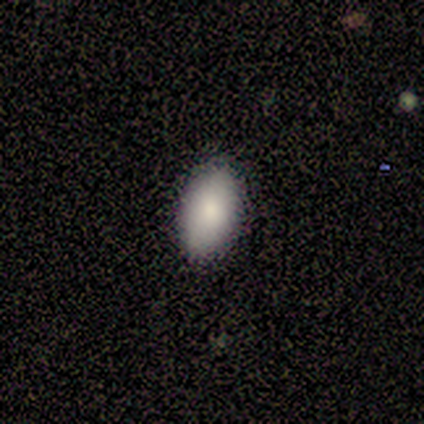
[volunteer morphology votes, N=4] type=smooth (75%); roundness=in between (67%); merging=none (75%).